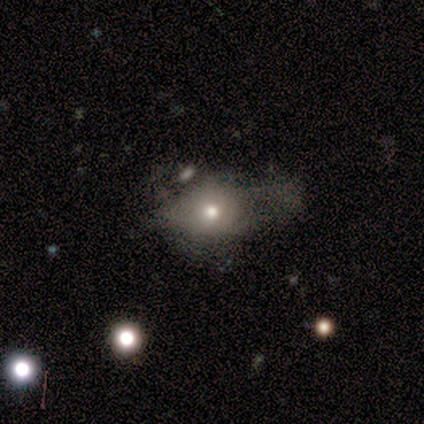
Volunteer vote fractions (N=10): Morphology: type=featured or disk (50%); edge-on=no (100%); bar=no (100%); spiral arms=no (100%); bulge=large (40%, tied with small); merging=none (33%, tied with major disturbance).